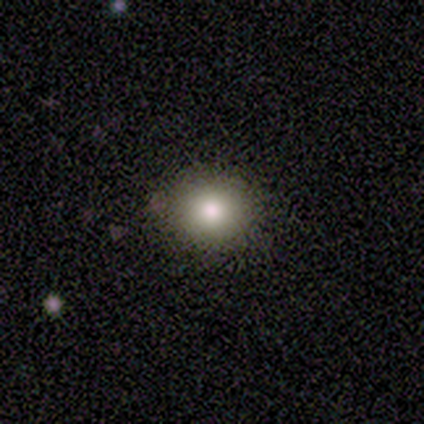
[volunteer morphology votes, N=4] A smooth galaxy with no disk features (75%) that is round (100%). Merging: none (33%, tied with minor disturbance and major disturbance).